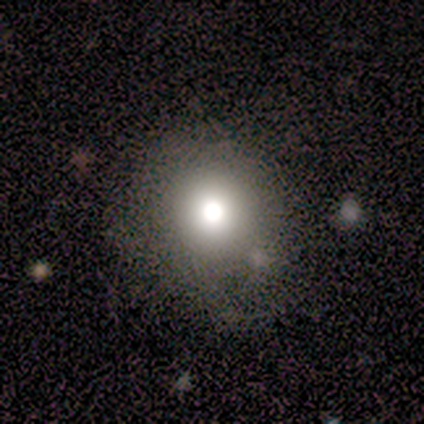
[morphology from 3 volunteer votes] smooth 100%, featured or disk 0%, star or artifact 0%. Down the decision tree: how rounded — round (100%); merging — none (100%).